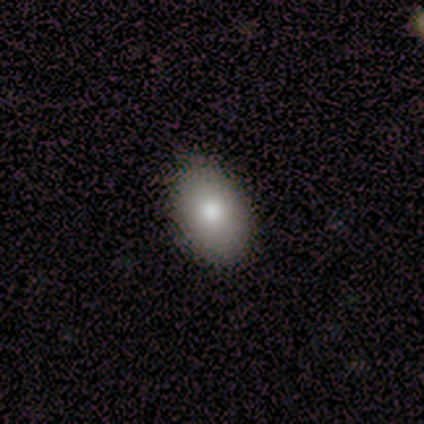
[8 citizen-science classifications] Smooth or featured? smooth (88%)
How rounded? in between (86%)
Merging? none (75%)